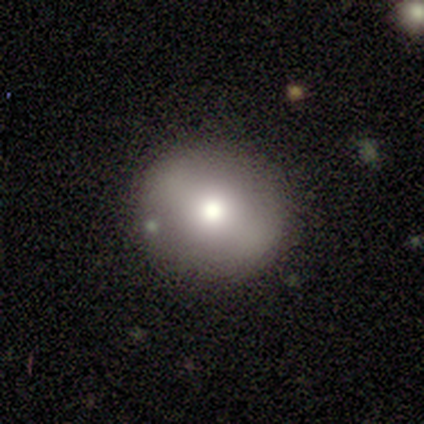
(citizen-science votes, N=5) smooth_or_featured: smooth (p=0.80) [alt: featured or disk p=0.20]
how_rounded: round (p=1.00)
merging: none (p=1.00)